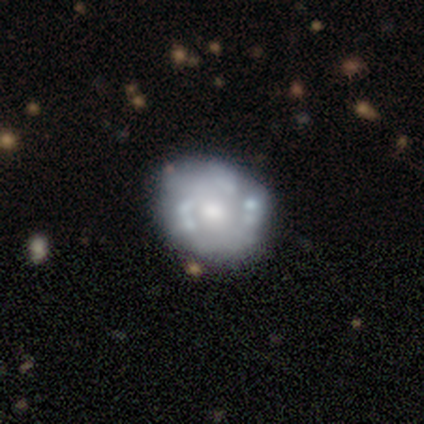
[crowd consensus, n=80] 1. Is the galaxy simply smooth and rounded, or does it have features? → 74% featured or disk, 24% smooth, 2% star or artifact.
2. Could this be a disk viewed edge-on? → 98% no, 2% yes.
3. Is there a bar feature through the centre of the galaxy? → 90% no, 10% weak, 0% strong.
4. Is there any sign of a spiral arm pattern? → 69% no, 31% yes.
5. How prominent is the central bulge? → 64% moderate, 26% small, 7% large, 2% dominant, 2% none.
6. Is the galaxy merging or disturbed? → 44% none, 13% minor disturbance, 5% merger, 0% major disturbance.